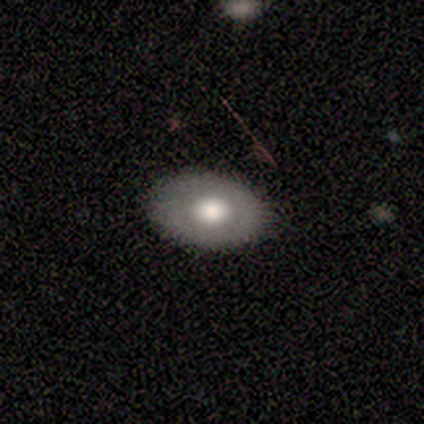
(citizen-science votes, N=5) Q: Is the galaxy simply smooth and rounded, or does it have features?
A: featured or disk — 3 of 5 (60%).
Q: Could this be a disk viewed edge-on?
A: no — 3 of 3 (100%).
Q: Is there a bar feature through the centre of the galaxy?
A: no — 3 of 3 (100%).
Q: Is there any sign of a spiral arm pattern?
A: no — 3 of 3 (100%).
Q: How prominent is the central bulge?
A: large — 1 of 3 (33%, tied with moderate and none).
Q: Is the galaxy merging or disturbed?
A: none — 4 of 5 (80%).